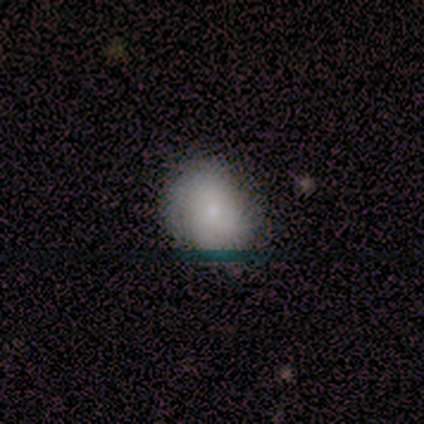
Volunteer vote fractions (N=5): Smooth or featured: smooth — 60% (featured or disk — 40%)
How rounded: in between — 67% (round — 33%)
Merging: none — 100%